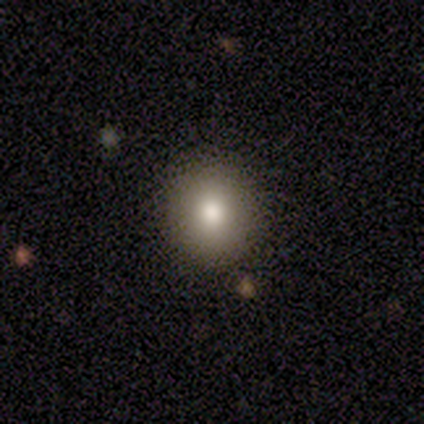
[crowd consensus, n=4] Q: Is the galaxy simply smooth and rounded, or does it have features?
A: smooth — 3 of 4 (75%).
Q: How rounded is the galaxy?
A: round — 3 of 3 (100%).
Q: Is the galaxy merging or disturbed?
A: none — 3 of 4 (75%).